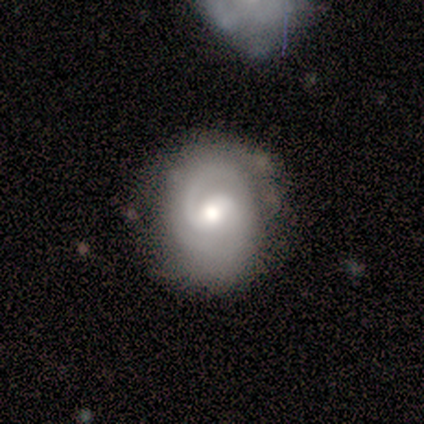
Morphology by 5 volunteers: A featured or disk galaxy (100%) with a weak bar (60%), 2 (100%) medium (60%) spiral arms (100%) and a moderate central bulge (100%). Merging: none (80%).